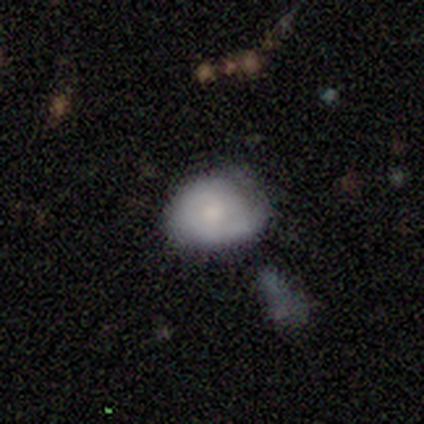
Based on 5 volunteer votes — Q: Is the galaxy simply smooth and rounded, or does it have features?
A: smooth — 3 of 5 (60%).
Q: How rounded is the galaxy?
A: in between — 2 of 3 (67%).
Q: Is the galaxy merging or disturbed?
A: none — 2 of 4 (50%, tied with minor disturbance).